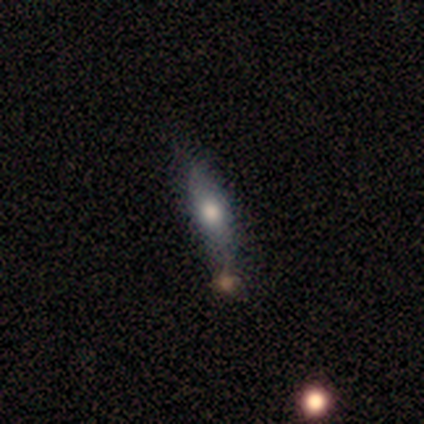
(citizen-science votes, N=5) Smooth or featured: smooth — 60% (featured or disk — 40%)
How rounded: cigar-shaped — 100%
Merging: none — 60% (minor disturbance — 40%)